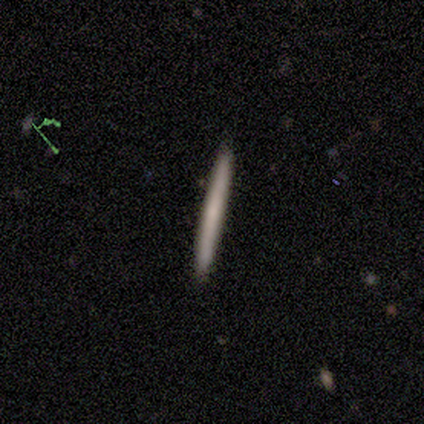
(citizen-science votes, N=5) Smooth or featured? smooth (40%, tied with featured or disk)
How rounded? cigar-shaped (100%)
Merging? none (100%)